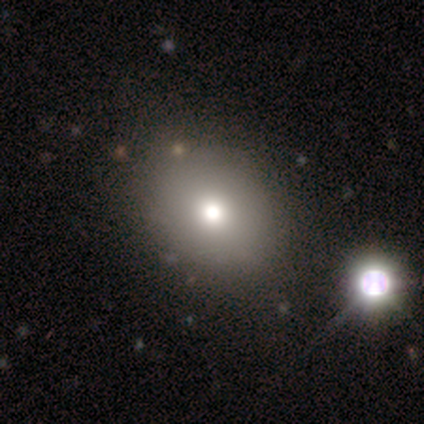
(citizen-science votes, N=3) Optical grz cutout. It shows a smooth galaxy with no disk features (100%) that is round (67%). Merging: none (67%).